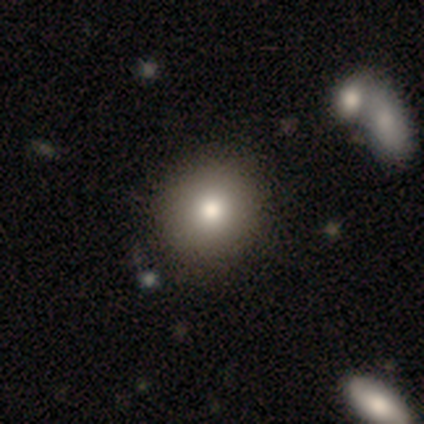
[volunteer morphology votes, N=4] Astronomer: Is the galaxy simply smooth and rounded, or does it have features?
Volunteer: smooth — 75%.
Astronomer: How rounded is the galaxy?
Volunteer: round — 100%.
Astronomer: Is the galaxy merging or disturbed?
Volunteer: none — 75%.